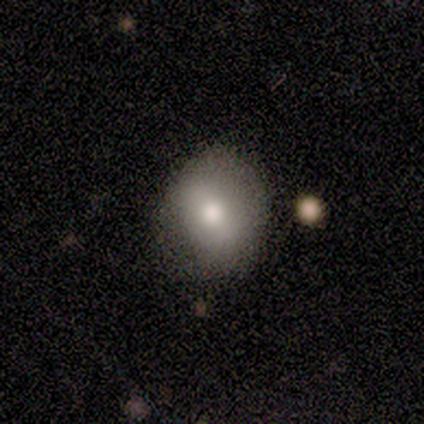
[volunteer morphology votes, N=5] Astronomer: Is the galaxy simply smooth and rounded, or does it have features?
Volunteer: smooth — 60% (runner-up: featured or disk, 40%).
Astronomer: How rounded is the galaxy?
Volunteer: round — 100%.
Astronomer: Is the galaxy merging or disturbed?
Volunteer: none — 60% (runner-up: minor disturbance, 40%).